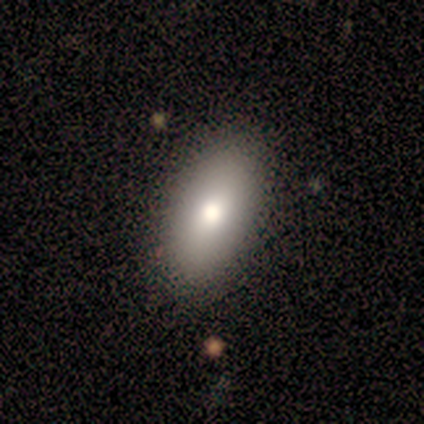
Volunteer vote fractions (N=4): Smooth or featured: smooth — 75% (featured or disk — 25%)
How rounded: in between — 100%
Merging: none — 100%